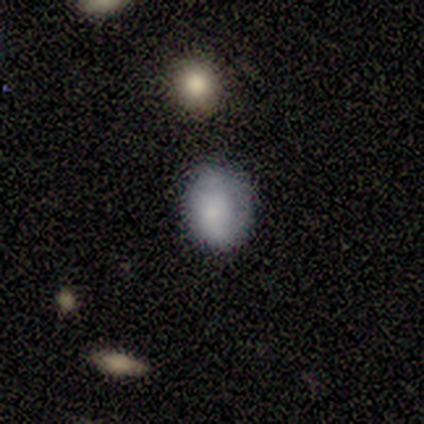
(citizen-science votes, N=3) Smooth or featured: smooth — 67% (featured or disk — 33%)
How rounded: round — 50% (tied with in between — 50%)
Merging: none — 67% (minor disturbance — 33%)